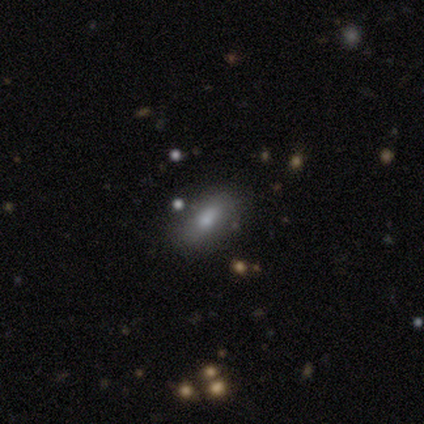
Smooth or featured? smooth (60%)
How rounded? in between (100%)
Merging? none (40%, tied with minor disturbance)